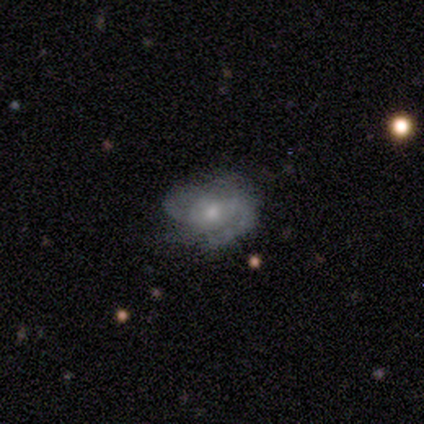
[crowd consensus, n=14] Smooth or featured?
  - featured or disk: 86% *
  - smooth: 14%
  - star or artifact: 0%
Edge-on disk?
  - no: 100% *
  - yes: 0%
Bar?
  - no: 58% *
  - weak: 25%
  - strong: 17%
Spiral arms?
  - yes: 92% *
  - no: 8%
Spiral winding?
  - loose: 55% *
  - medium: 27%
  - tight: 18%
Spiral arm count?
  - 2: 73% *
  - 1: 9%
  - 3: 9%
  - can't tell: 9%
  - 4: 0%
  - more than 4: 0%
Bulge size?
  - moderate: 50% * (tied)
  - small: 50% * (tied)
  - dominant: 0%
  - large: 0%
  - none: 0%
Merging?
  - none: 71% *
  - minor disturbance: 14%
  - major disturbance: 14%
  - merger: 0%